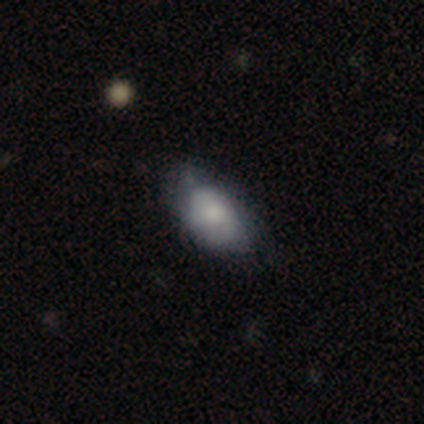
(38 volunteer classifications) Smooth or featured? 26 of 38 (68%) said smooth. How rounded? 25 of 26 (96%) said in between. Merging? 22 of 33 (67%) said none.